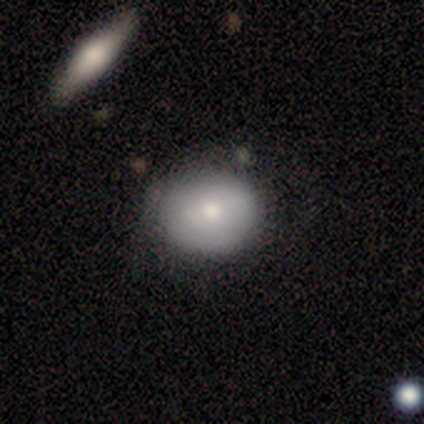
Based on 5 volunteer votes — Smooth or featured? smooth (60%)
How rounded? round (67%)
Merging? none (80%)